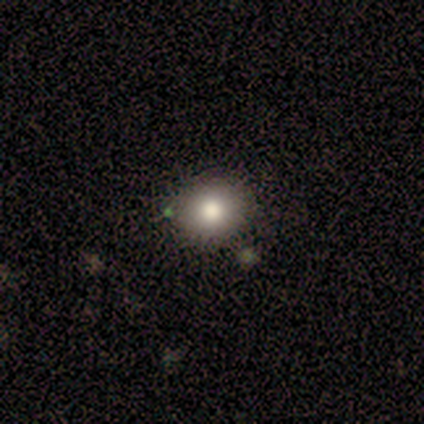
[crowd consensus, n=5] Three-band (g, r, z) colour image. It shows a featured or disk galaxy (60%) with no bar (100%), no spiral arms (100%) and a large central bulge (33%, tied with moderate and small). Merging: none (80%).